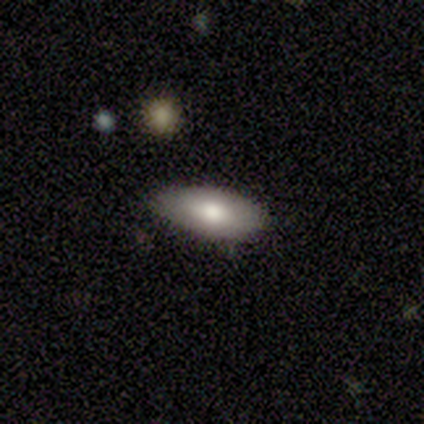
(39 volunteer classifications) A smooth galaxy with no disk features (74%) that is in between round and cigar-shaped (86%). Merging: none (75%).